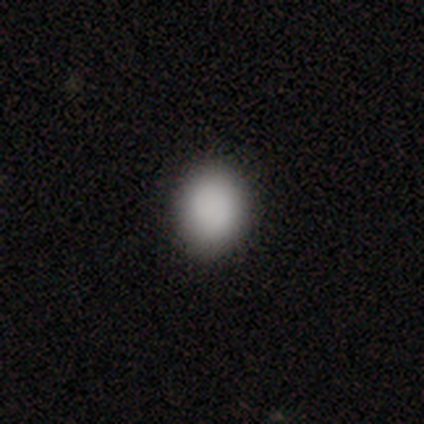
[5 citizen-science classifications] Q: Smooth or featured?
A: smooth (60%); runner-up: featured or disk (20%)
Q: How rounded?
A: round (67%); runner-up: in between (33%)
Q: Merging?
A: none (100%)